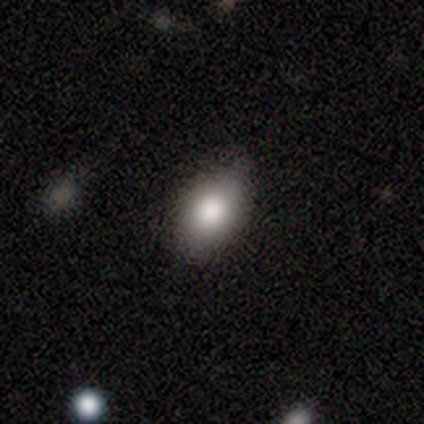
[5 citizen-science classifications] smooth 100%, featured or disk 0%, star or artifact 0%. Down the decision tree: how rounded — in between (80%); merging — none (60%).